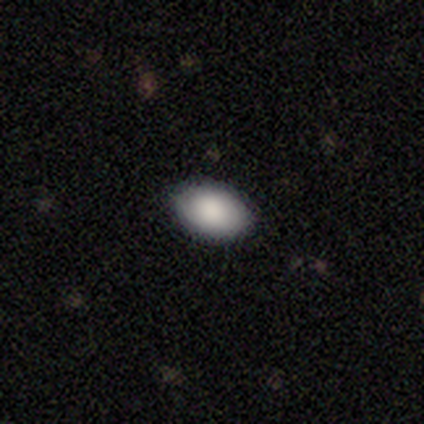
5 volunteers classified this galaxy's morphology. smooth 100%, featured or disk 0%, star or artifact 0%. Down the decision tree: how rounded — in between (100%); merging — none (100%).